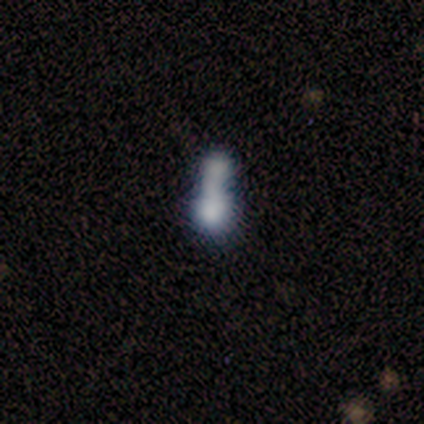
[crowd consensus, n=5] A smooth galaxy with no disk features (80%) that is cigar-shaped (50%).

Vote fractions:
- Smooth or featured? smooth: 80% / star or artifact: 20% / featured or disk: 0%
- How rounded? cigar-shaped: 50% / round: 25% / in between: 25%
- Merging? merger: 75% / none: 25% / minor disturbance: 0% / major disturbance: 0%